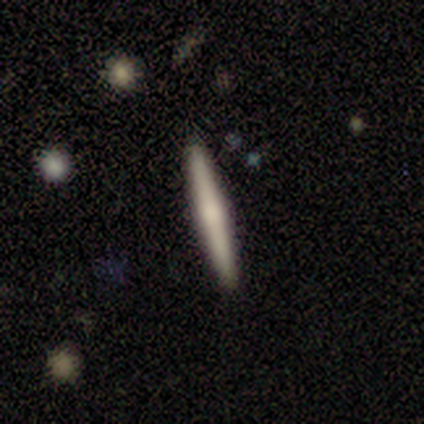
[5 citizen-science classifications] Smooth or featured: smooth — 60% (featured or disk — 40%)
How rounded: cigar-shaped — 100%
Merging: none — 100%